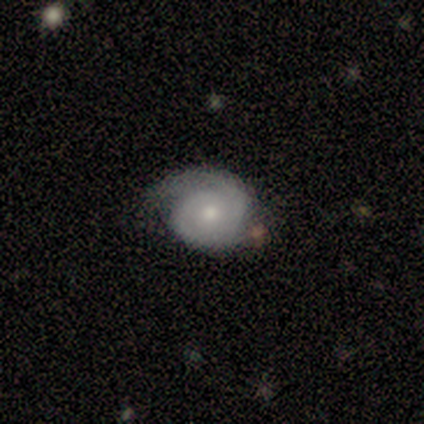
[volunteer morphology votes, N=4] Smooth or featured: featured or disk — 100%
Edge-on disk: no — 100%
Bar: no — 75% (weak — 25%)
Spiral arms: yes — 100%
Spiral winding: tight — 50% (medium — 25%)
Spiral arm count: 1 — 50% (tied with 2 — 50%)
Bulge size: small — 50% (moderate — 25%)
Merging: none — 100%